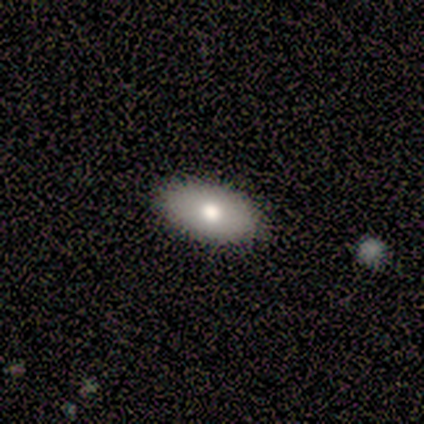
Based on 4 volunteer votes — A smooth galaxy with no disk features (75%) that is in between round and cigar-shaped (67%).

Vote fractions:
- Smooth or featured? smooth: 75% / featured or disk: 25% / star or artifact: 0%
- How rounded? in between: 67% / round: 33% / cigar-shaped: 0%
- Merging? none: 75% / minor disturbance: 25% / major disturbance: 0% / merger: 0%